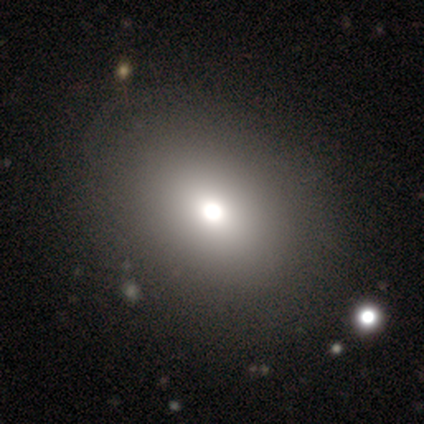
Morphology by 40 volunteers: This appears to be a smooth galaxy with no disk features (85%) that is in between round and cigar-shaped (53%). Merging: none (69%).